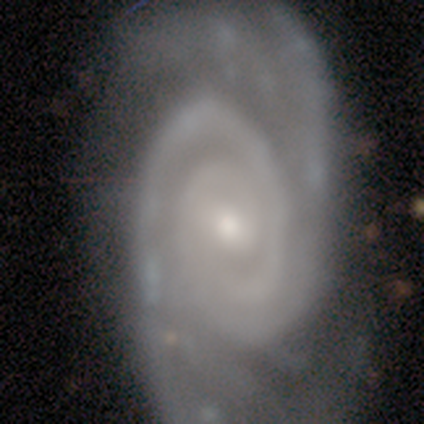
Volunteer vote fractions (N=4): Smooth or featured? featured or disk (100%)
Edge-on disk? no (100%)
Bar? weak (75%)
Spiral arms? yes (100%)
Spiral winding? tight (75%)
Spiral arm count? 2 (50%)
Bulge size? moderate (75%)
Merging? none (75%)